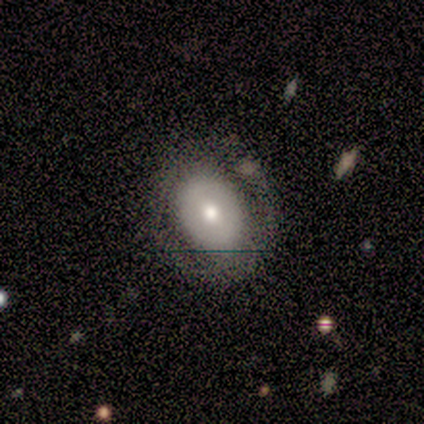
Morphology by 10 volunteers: This appears to be a featured or disk galaxy (50%) with no bar (60%), no spiral arms (100%) and a moderate central bulge (80%). Merging: none (75%).